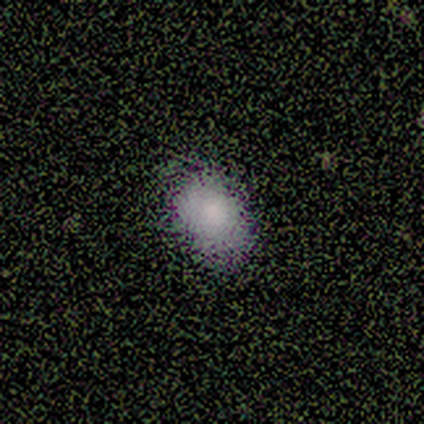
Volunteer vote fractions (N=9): Q: Smooth or featured?
A: smooth (67%); runner-up: star or artifact (33%)
Q: How rounded?
A: in between (83%); runner-up: round (17%)
Q: Merging?
A: none (100%)